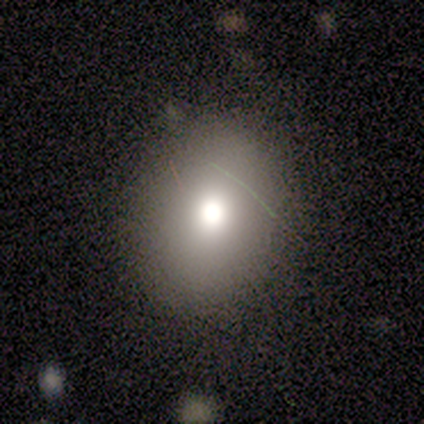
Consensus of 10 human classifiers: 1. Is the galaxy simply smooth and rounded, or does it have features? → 80% smooth, 10% featured or disk, 10% star or artifact.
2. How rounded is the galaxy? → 62% in between, 38% round, 0% cigar-shaped.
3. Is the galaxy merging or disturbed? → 89% none, 11% minor disturbance, 0% major disturbance, 0% merger.